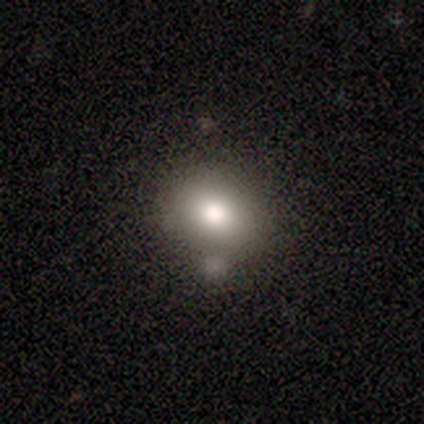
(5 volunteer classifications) A smooth galaxy with no disk features (80%) that is round (50%).

Vote fractions:
- Smooth or featured? smooth: 80% / star or artifact: 20% / featured or disk: 0%
- How rounded? round: 50% / in between: 25% / cigar-shaped: 25%
- Merging? none: 50% (tied) / merger: 50% (tied) / minor disturbance: 0% / major disturbance: 0%